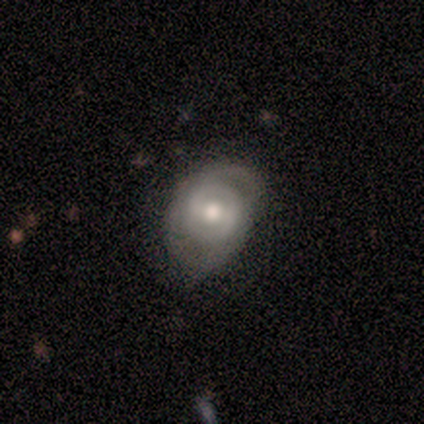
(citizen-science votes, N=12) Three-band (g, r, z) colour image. It shows a featured or disk galaxy (83%) with a weak bar (40%, tied with no), 2 (60%) medium (80%) spiral arms (50%, tied with no) and a moderate central bulge (90%). Merging: minor disturbance (45%).